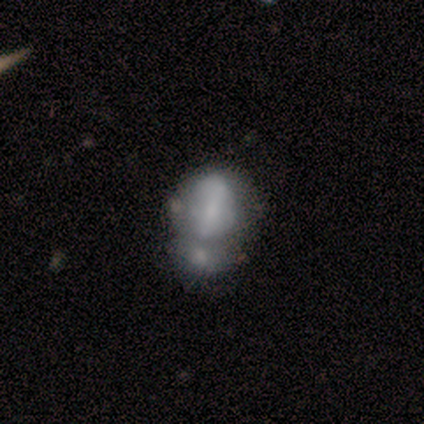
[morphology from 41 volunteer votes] This is possibly a featured or disk galaxy (54%). It is clearly not viewed edge-on (100%). Bar: possibly strong (45%). Spiral arm pattern: likely no (64%). Central bulge: marginally none (41%). Merging: likely merger (64%).